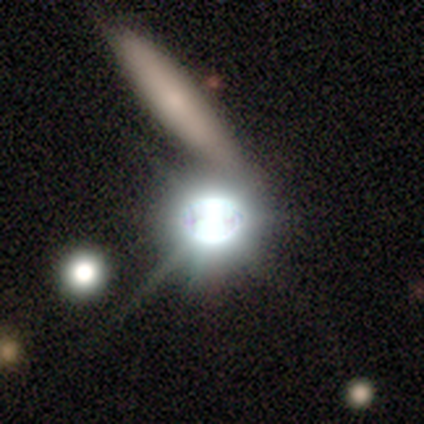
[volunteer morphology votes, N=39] star or artifact 69%, smooth 15%, featured or disk 15%.